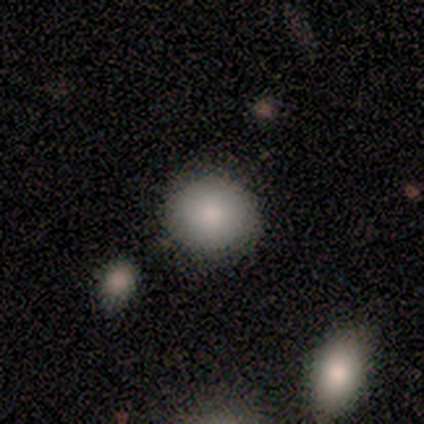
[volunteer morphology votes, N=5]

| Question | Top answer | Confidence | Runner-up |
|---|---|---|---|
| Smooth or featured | smooth | 100% | — |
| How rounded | round | 100% | — |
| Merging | none | 80% | minor disturbance (20%) |